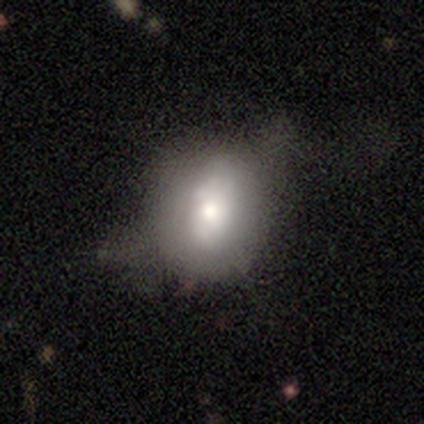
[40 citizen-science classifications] smooth_or_featured: smooth (p=0.60) [alt: featured or disk p=0.28]
how_rounded: round (p=0.50) [tied with: in between p=0.50]
merging: none (p=0.43) [alt: minor disturbance p=0.29]